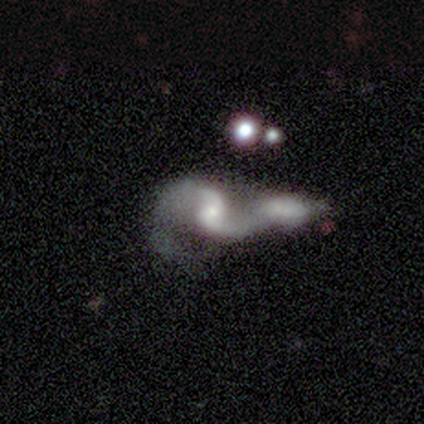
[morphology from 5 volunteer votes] featured or disk 100%, smooth 0%, star or artifact 0%. Down the decision tree: edge-on disk — no (100%); bar — weak (80%); spiral arms — yes (100%); spiral arm count — 2 (100%); spiral winding — loose (60%); bulge size — small (80%); merging — merger (60%).